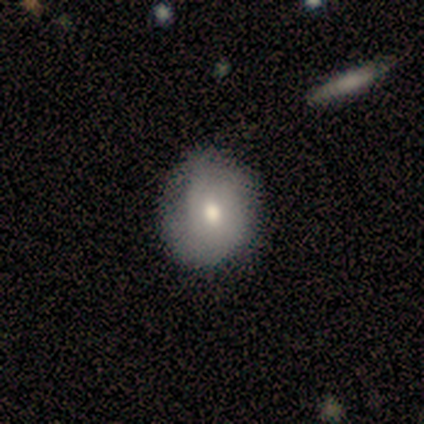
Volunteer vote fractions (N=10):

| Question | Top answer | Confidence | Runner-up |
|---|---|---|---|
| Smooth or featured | smooth | 90% | featured or disk (10%) |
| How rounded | round | 56% | in between (44%) |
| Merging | none | 70% | minor disturbance (30%) |